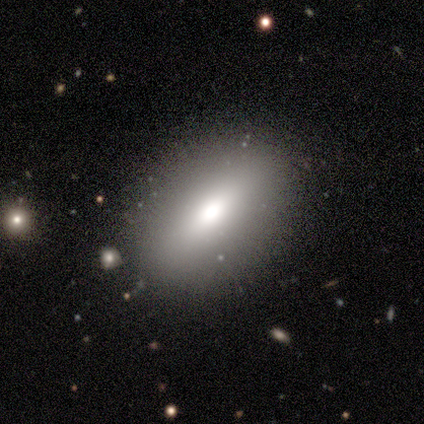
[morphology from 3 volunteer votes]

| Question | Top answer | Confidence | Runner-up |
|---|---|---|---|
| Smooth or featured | smooth | 67% | star or artifact (33%) |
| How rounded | in between | 100% | — |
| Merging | none | 100% | — |